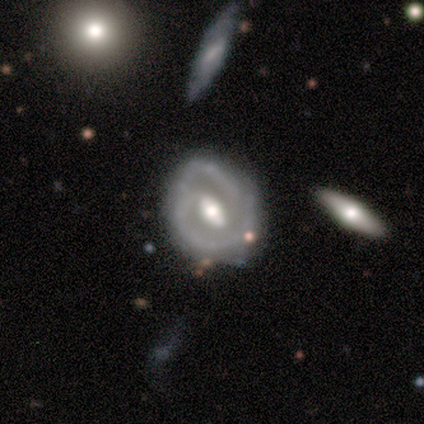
featured or disk 80%, smooth 20%, star or artifact 0%. Down the decision tree: edge-on disk — no (100%); bar — no (50%); spiral arms — yes (100%); spiral arm count — 2 (100%); spiral winding — medium (75%); bulge size — moderate (50%); merging — minor disturbance (60%).